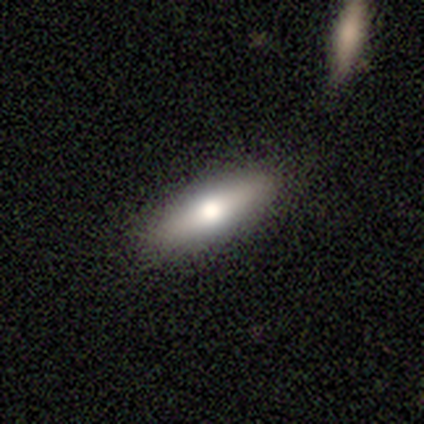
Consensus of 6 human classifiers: A smooth galaxy with no disk features (83%) that is in between round and cigar-shaped (60%).

Vote fractions:
- Smooth or featured? smooth: 83% / featured or disk: 17% / star or artifact: 0%
- How rounded? in between: 60% / cigar-shaped: 40% / round: 0%
- Merging? none: 83% / minor disturbance: 17% / major disturbance: 0% / merger: 0%